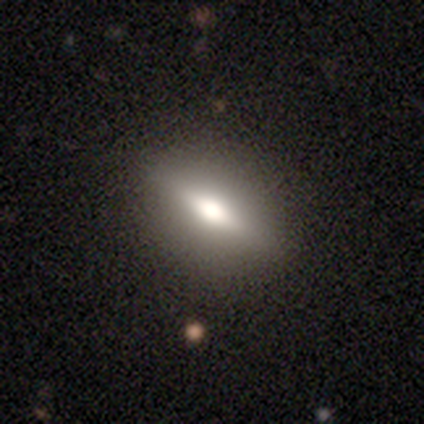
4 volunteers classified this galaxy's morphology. smooth 50% (tied), featured or disk 50% (tied), star or artifact 0%. Down the decision tree: how rounded — in between (100%); merging — none (100%).